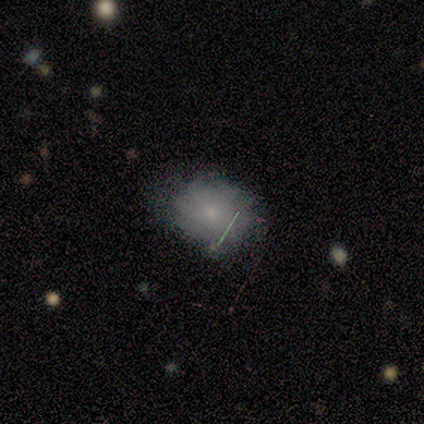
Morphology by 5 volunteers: Overall: smooth (100%). How rounded: round (80%). Merging: minor disturbance (60%; none 40%).